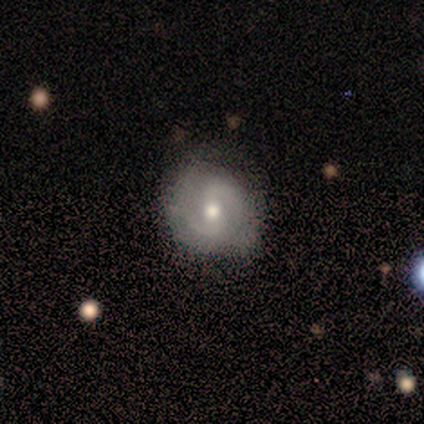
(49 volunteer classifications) featured or disk 78%, smooth 20%, star or artifact 2%. Down the decision tree: edge-on disk — no (100%); bar — weak (47%); spiral arms — yes (97%); spiral arm count — 2 (92%); spiral winding — medium (59%); bulge size — moderate (79%); merging — none (65%).